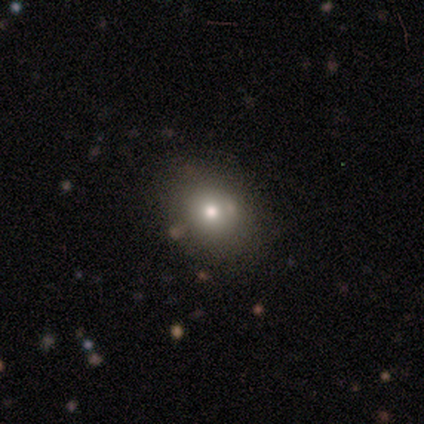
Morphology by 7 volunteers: Smooth or featured?
  - smooth: 86% *
  - star or artifact: 14%
  - featured or disk: 0%
How rounded?
  - round: 83% *
  - in between: 17%
  - cigar-shaped: 0%
Merging?
  - none: 67% *
  - minor disturbance: 17%
  - merger: 17%
  - major disturbance: 0%